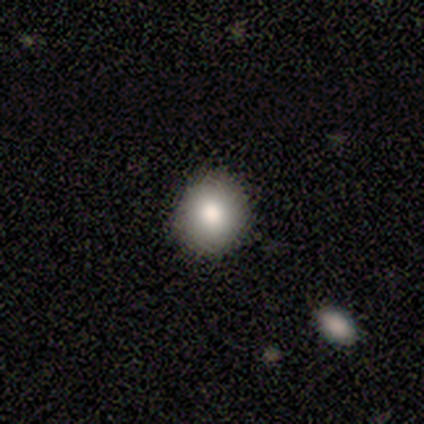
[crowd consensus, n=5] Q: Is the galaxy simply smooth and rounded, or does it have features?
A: smooth — 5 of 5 (100%).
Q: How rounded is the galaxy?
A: round — 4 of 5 (80%).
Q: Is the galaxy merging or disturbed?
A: none — 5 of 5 (100%).